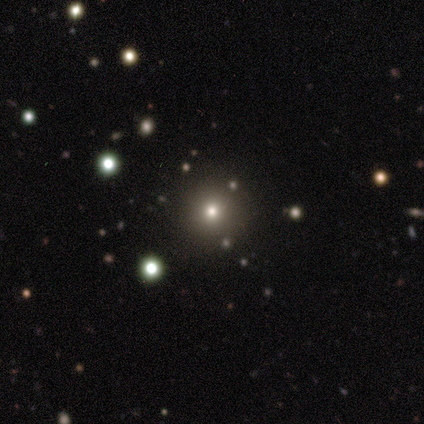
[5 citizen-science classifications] Smooth or featured? smooth (60%)
How rounded? round (100%)
Merging? none (100%)